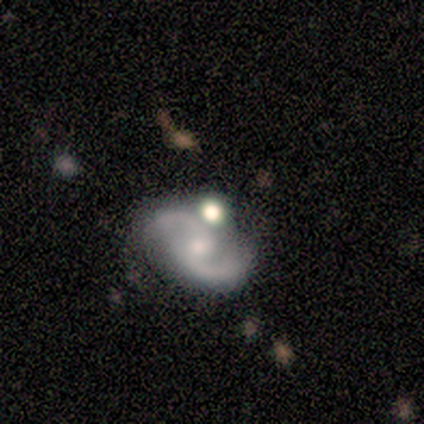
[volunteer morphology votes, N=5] Smooth or featured: featured or disk — 100%
Edge-on disk: no — 100%
Bar: no — 60% (strong — 20%)
Spiral arms: yes — 100%
Spiral winding: medium — 40% (tied with loose — 40%)
Spiral arm count: 2 — 100%
Bulge size: moderate — 40% (tied with small — 40%)
Merging: none — 80% (minor disturbance — 20%)